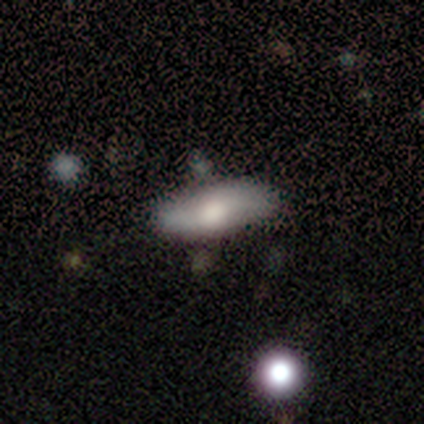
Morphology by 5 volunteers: A smooth galaxy with no disk features (40%, tied with star or artifact) that is in between round and cigar-shaped (100%).

Vote fractions:
- Smooth or featured? smooth: 40% (tied) / star or artifact: 40% (tied) / featured or disk: 20%
- How rounded? in between: 100% / round: 0% / cigar-shaped: 0%
- Merging? none: 67% / minor disturbance: 33% / major disturbance: 0% / merger: 0%